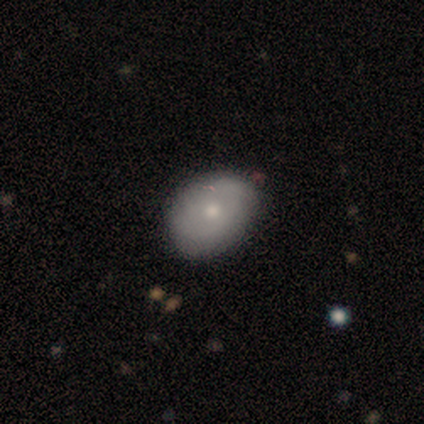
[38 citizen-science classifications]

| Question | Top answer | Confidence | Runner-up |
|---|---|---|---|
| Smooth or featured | smooth | 63% | featured or disk (29%) |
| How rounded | in between | 62% | round (38%) |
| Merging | none | 83% | minor disturbance (17%) |